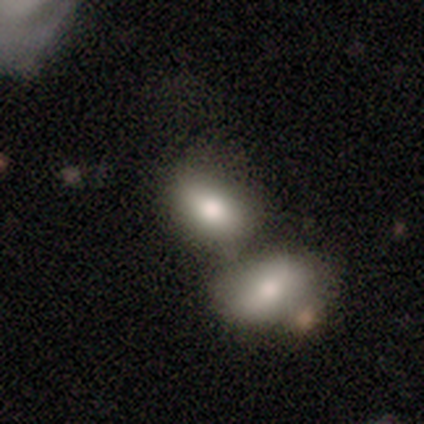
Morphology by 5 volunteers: type=smooth (100%); roundness=in between (60%); merging=none (60%).